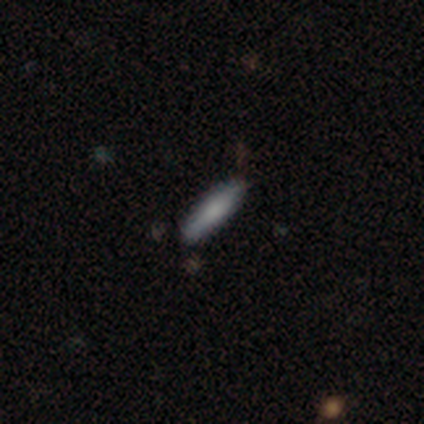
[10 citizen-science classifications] Q: Smooth or featured?
A: smooth (90%); runner-up: star or artifact (10%)
Q: How rounded?
A: cigar-shaped (78%); runner-up: in between (22%)
Q: Merging?
A: none (89%); runner-up: minor disturbance (11%)